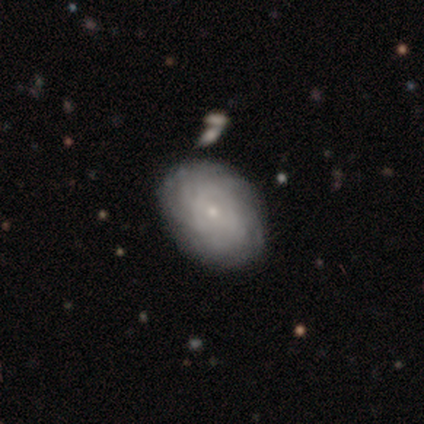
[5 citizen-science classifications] featured or disk 80%, smooth 20%, star or artifact 0%. Down the decision tree: edge-on disk — no (100%); bar — no (100%); spiral arms — yes (75%); spiral arm count — can't tell (67%); spiral winding — tight (67%); bulge size — small (100%); merging — none (80%).